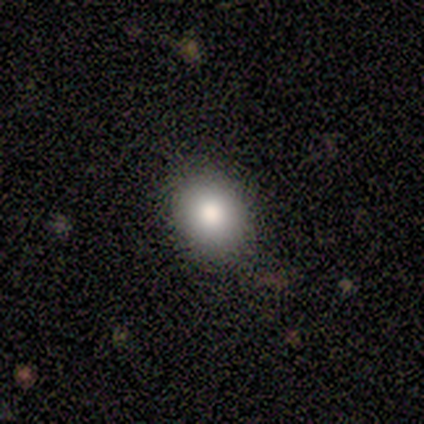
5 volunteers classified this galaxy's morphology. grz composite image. It shows a smooth galaxy with no disk features (100%) that is round (100%). Merging: none (100%).